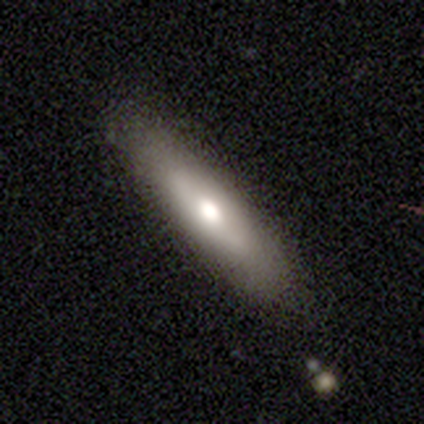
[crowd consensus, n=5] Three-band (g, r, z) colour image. It shows a featured or disk galaxy (60%) viewed edge-on (67%) with a rounded central bulge (100%). Merging: none (100%).